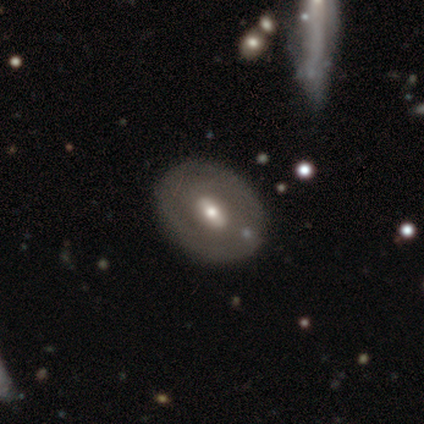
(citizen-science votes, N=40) Volunteers were most divided on "bar" (2-way tie): weak: 43%, no: 43%, strong: 14%. More confident: edge-on disk — no (95%); merging — none (95%); spiral arms — no (81%); bulge size — moderate (71%); smooth or featured — featured or disk (55%).